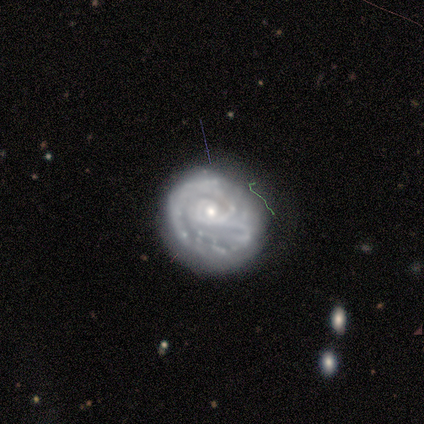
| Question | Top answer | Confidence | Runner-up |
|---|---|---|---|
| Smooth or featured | featured or disk | 50% | smooth (25%) |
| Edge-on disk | no | 100% | — |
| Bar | no | 100% | — |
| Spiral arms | yes | 100% | — |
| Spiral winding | tight | 100% | — |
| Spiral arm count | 1 | 50% | tied: can't tell (50%) |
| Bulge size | small | 100% | — |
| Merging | minor disturbance | 67% | none (33%) |